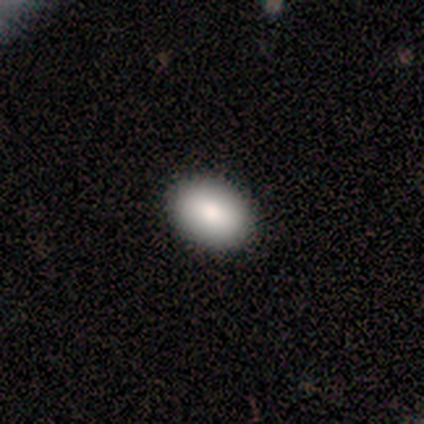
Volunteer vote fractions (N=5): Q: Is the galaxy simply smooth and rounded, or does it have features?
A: smooth — 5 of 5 (100%).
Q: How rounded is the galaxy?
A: in between — 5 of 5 (100%).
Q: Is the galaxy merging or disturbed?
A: none — 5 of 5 (100%).